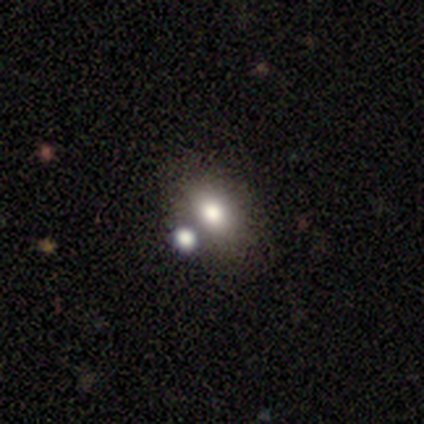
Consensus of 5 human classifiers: Smooth or featured?
  - smooth: 100% *
  - featured or disk: 0%
  - star or artifact: 0%
How rounded?
  - in between: 80% *
  - round: 20%
  - cigar-shaped: 0%
Merging?
  - merger: 60% *
  - none: 40%
  - minor disturbance: 0%
  - major disturbance: 0%